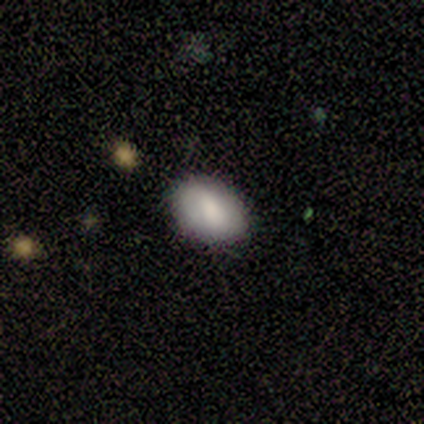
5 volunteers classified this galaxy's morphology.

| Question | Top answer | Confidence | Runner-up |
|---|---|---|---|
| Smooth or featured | smooth | 60% | featured or disk (40%) |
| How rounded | in between | 100% | — |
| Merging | none | 100% | — |